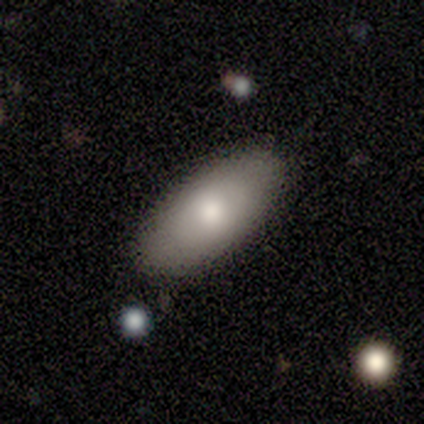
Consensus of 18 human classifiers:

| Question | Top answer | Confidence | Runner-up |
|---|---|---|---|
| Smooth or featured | smooth | 78% | featured or disk (17%) |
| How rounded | in between | 93% | cigar-shaped (7%) |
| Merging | none | 82% | minor disturbance (18%) |